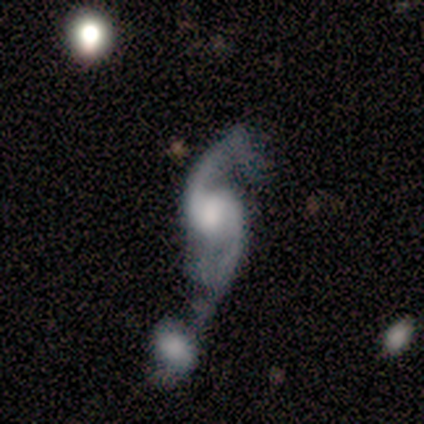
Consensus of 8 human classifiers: Smooth or featured? 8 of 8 (100%) said featured or disk. Edge-on disk? 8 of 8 (100%) said no. Bar? 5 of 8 (62%) said no. Spiral arms? 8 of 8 (100%) said yes. Spiral winding? 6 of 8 (75%) said loose. Spiral arm count? 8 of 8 (100%) said 2. Bulge size? 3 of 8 (38%, tied with moderate) said large. Merging? 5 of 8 (62%) said merger.